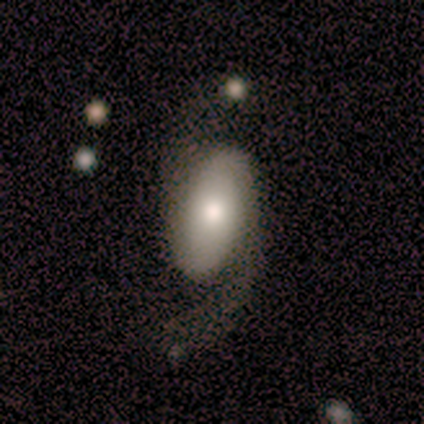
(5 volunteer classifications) smooth 40% (tied), featured or disk 40% (tied), star or artifact 20%. Down the decision tree: how rounded — in between (100%); merging — none (50%).